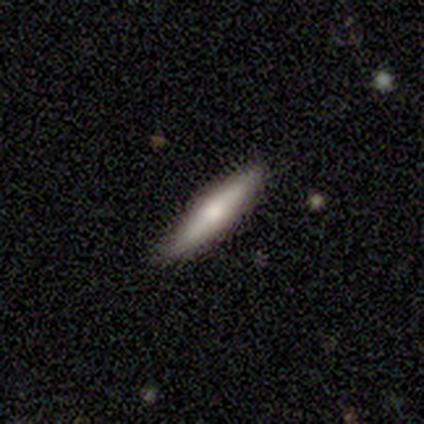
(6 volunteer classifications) Volunteers were most divided on "smooth or featured" (2-way tie): smooth: 50%, featured or disk: 50%, star or artifact: 0%. More confident: how rounded — cigar-shaped (100%); merging — none (83%).